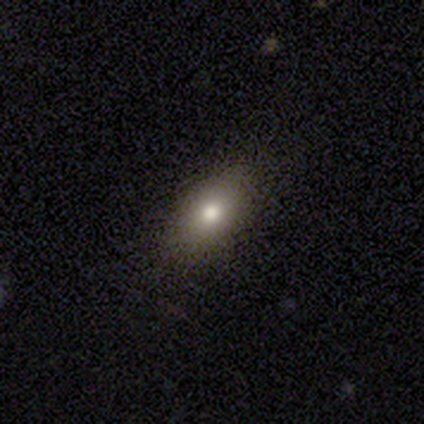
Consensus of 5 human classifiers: smooth-or-featured: smooth: 40% (tied) | featured or disk: 40% (tied) | star or artifact: 20%
  how-rounded: in between: 100% | round: 0% | cigar-shaped: 0%
  merging: none: 100% | minor disturbance: 0% | major disturbance: 0% | merger: 0%